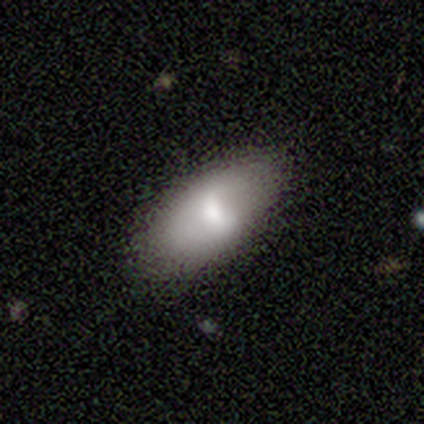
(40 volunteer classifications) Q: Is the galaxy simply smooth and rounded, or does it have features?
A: smooth — 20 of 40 (50%).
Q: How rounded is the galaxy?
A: in between — 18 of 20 (90%).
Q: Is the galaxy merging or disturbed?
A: none — 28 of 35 (80%).